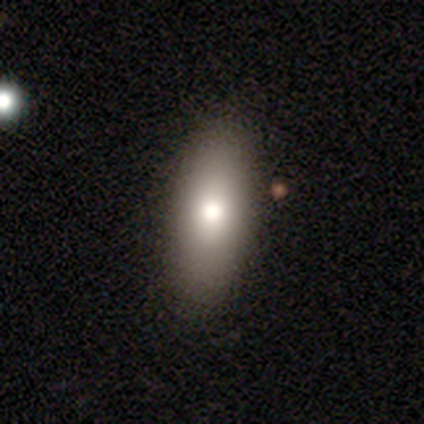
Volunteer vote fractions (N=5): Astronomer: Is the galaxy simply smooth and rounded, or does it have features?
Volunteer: smooth — 40%, tied with featured or disk at 40%.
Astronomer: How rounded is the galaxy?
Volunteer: in between — 50%, tied with cigar-shaped at 50%.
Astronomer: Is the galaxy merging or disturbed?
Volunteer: none — 75%.